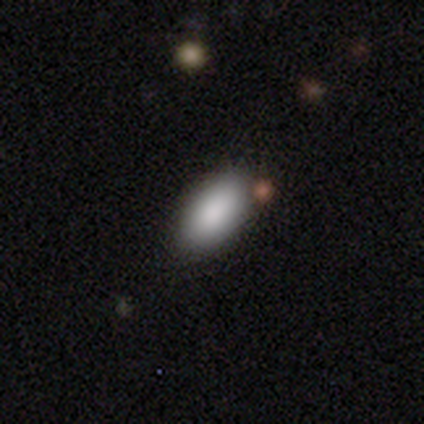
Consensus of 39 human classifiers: Q: Smooth or featured?
A: smooth (77%); runner-up: featured or disk (15%)
Q: How rounded?
A: in between (97%); runner-up: round (3%)
Q: Merging?
A: none (78%); runner-up: minor disturbance (14%)